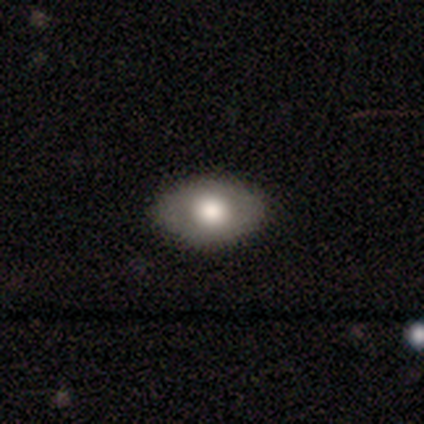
Volunteers were most divided on "smooth or featured": smooth: 66%, featured or disk: 26%, star or artifact: 8%. More confident: how rounded — in between (92%); merging — none (55%).